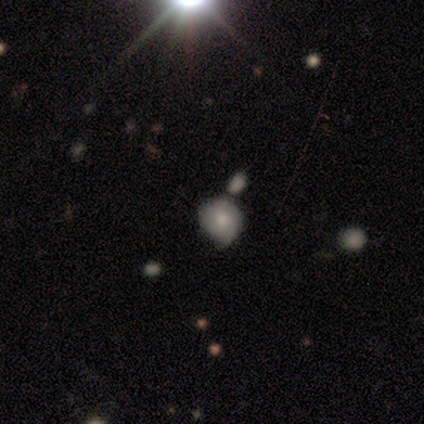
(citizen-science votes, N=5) smooth 60%, star or artifact 40%, featured or disk 0%. Down the decision tree: how rounded — round (67%); merging — merger (67%).